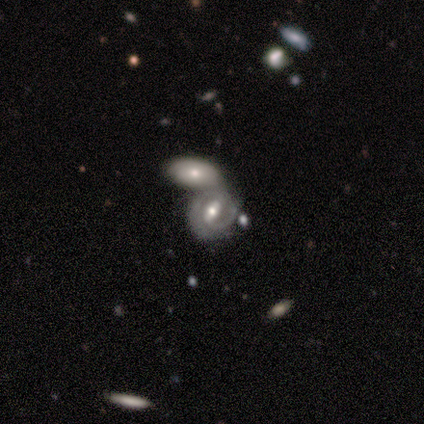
This appears to be a featured or disk galaxy (80%) with a strong bar (75%), 2 (67%) loose (67%) spiral arms (75%) and a moderate central bulge (75%). Merging: merger (100%).